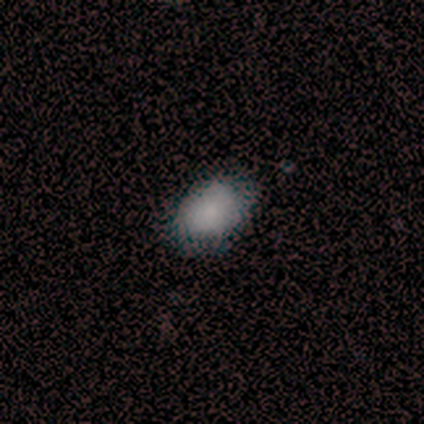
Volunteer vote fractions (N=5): smooth_or_featured: smooth (p=1.00)
how_rounded: in between (p=0.80) [alt: round p=0.20]
merging: none (p=0.80) [alt: minor disturbance p=0.20]